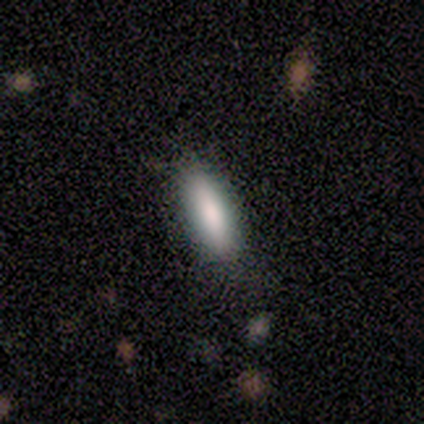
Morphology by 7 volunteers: smooth 86%, featured or disk 14%, star or artifact 0%. Down the decision tree: how rounded — in between (50%, tied with cigar-shaped); merging — none (57%).